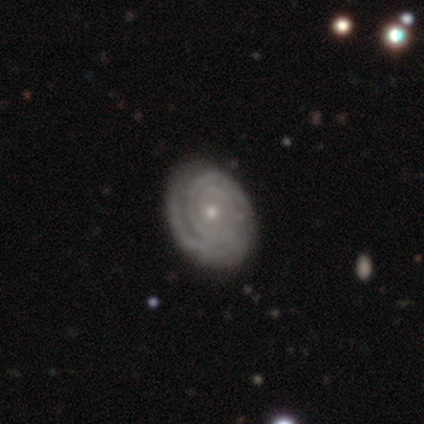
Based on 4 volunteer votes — This is clearly a featured or disk galaxy (100%). It is clearly not viewed edge-on (100%). Bar: clearly no (100%). Spiral arm pattern: clearly yes (100%). Spiral arm count: possibly 2 (50%). Spiral winding: likely tight (75%). Central bulge: likely small (75%). Merging: likely none (75%).